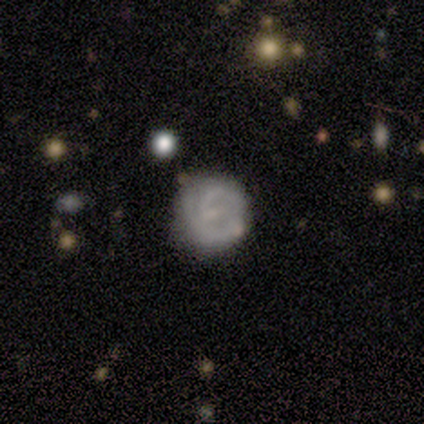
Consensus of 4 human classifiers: Smooth or featured? featured or disk (75%)
Edge-on disk? no (100%)
Bar? no (67%)
Spiral arms? yes (100%)
Spiral winding? tight (100%)
Spiral arm count? can't tell (67%)
Bulge size? none (100%)
Merging? none (100%)